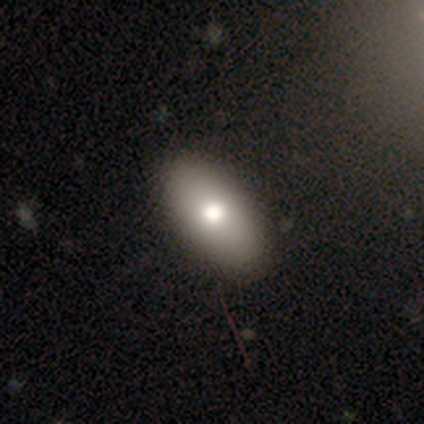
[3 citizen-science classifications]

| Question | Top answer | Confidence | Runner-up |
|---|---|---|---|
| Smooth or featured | smooth | 67% | star or artifact (33%) |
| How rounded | in between | 100% | — |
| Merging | none | 100% | — |